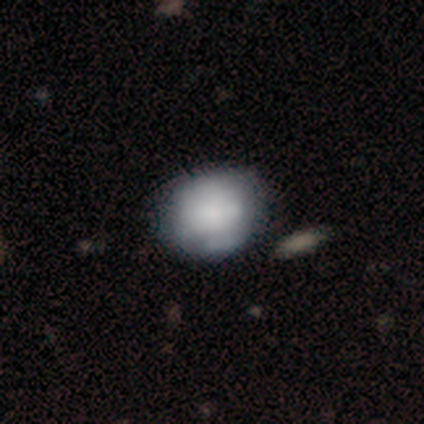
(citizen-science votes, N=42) Morphology: type=smooth (57%); roundness=round (71%); merging=none (51%).